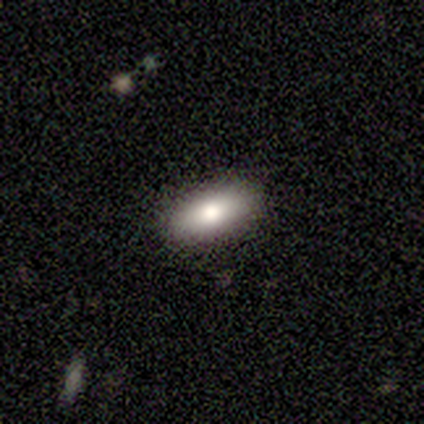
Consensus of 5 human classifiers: smooth-or-featured: smooth: 100% | featured or disk: 0% | star or artifact: 0%
  how-rounded: in between: 80% | cigar-shaped: 20% | round: 0%
  merging: none: 80% | minor disturbance: 20% | major disturbance: 0% | merger: 0%